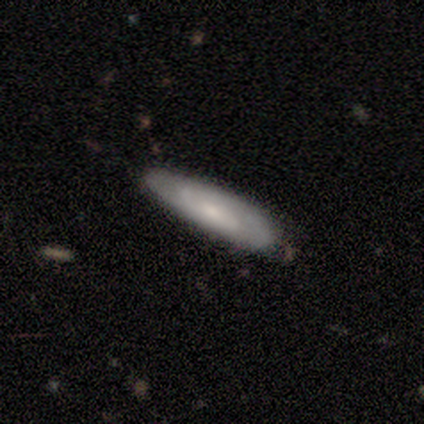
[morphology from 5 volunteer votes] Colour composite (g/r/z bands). It shows a smooth galaxy with no disk features (40%, tied with featured or disk) that is cigar-shaped (100%). Merging: none (75%).